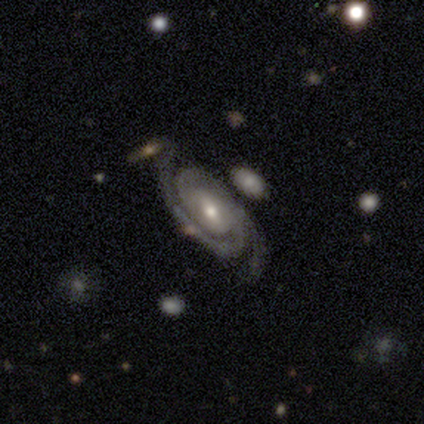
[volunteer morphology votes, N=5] Q: Smooth or featured?
A: featured or disk (80%); runner-up: star or artifact (20%)
Q: Edge-on disk?
A: no (100%)
Q: Bar?
A: weak (50%); tied with: no (50%)
Q: Spiral arms?
A: yes (100%)
Q: Spiral winding?
A: tight (75%); runner-up: medium (25%)
Q: Spiral arm count?
A: 2 (75%); runner-up: 3 (25%)
Q: Bulge size?
A: moderate (50%); tied with: small (50%)
Q: Merging?
A: none (75%); runner-up: merger (25%)